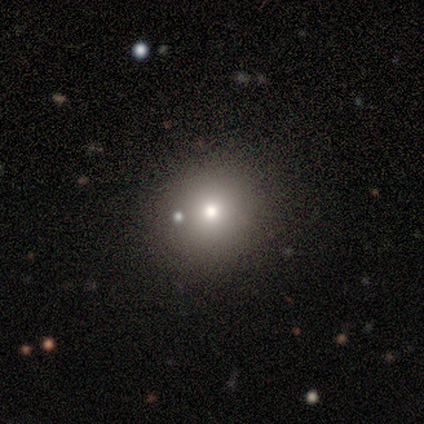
Smooth or featured?
  - smooth: 67% *
  - star or artifact: 33%
  - featured or disk: 0%
How rounded?
  - round: 50% * (tied)
  - in between: 50% * (tied)
  - cigar-shaped: 0%
Merging?
  - none: 100% *
  - minor disturbance: 0%
  - major disturbance: 0%
  - merger: 0%